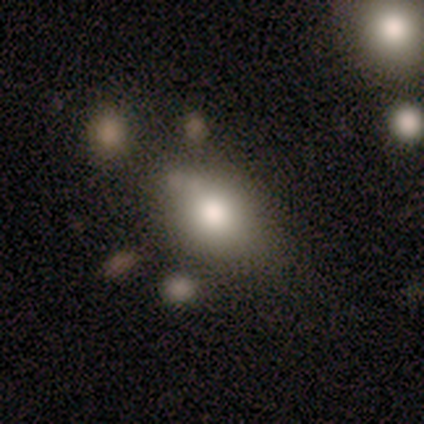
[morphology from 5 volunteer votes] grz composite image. It shows a smooth galaxy with no disk features (100%) that is in between round and cigar-shaped (80%). Merging: none (60%).